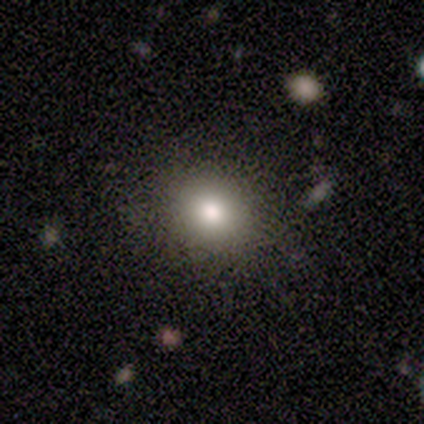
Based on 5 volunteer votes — smooth 60%, featured or disk 40%, star or artifact 0%. Down the decision tree: how rounded — in between (67%); merging — none (80%).